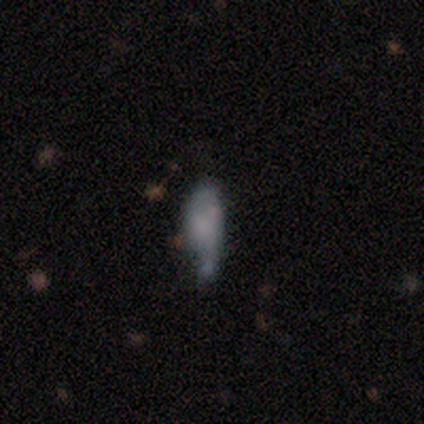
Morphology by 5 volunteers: This appears to be a smooth galaxy with no disk features (80%) that is in between round and cigar-shaped (50%, tied with cigar-shaped). Merging: major disturbance (75%).